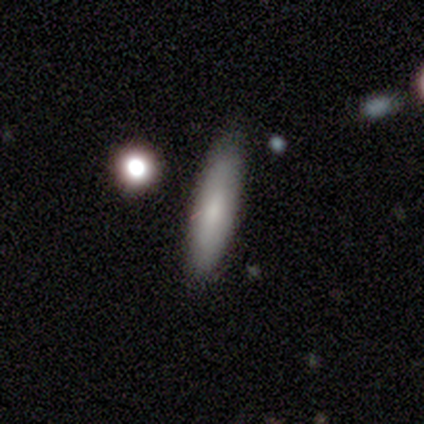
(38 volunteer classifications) Smooth or featured?
  - smooth: 79% *
  - featured or disk: 18%
  - star or artifact: 3%
How rounded?
  - cigar-shaped: 83% *
  - in between: 17%
  - round: 0%
Merging?
  - none: 76% *
  - minor disturbance: 16%
  - major disturbance: 5%
  - merger: 3%